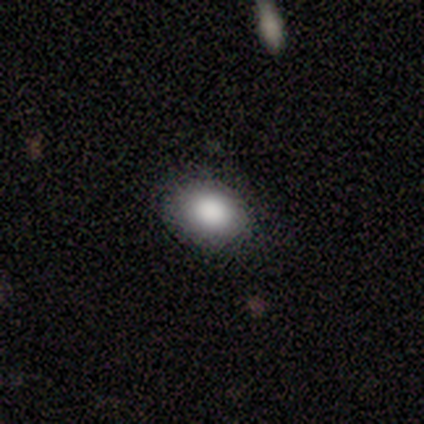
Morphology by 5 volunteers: type=smooth (100%); roundness=in between (80%); merging=none (100%).